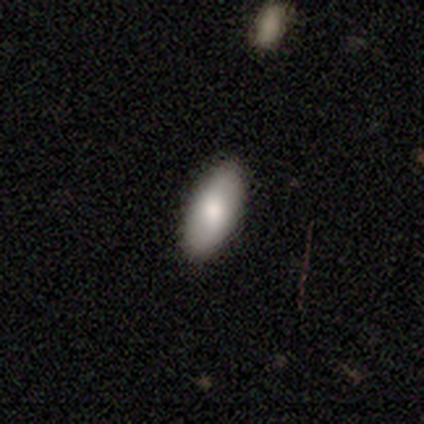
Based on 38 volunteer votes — Q: Smooth or featured?
A: smooth (82%); runner-up: featured or disk (16%)
Q: How rounded?
A: in between (90%); runner-up: cigar-shaped (10%)
Q: Merging?
A: none (95%); runner-up: minor disturbance (3%)